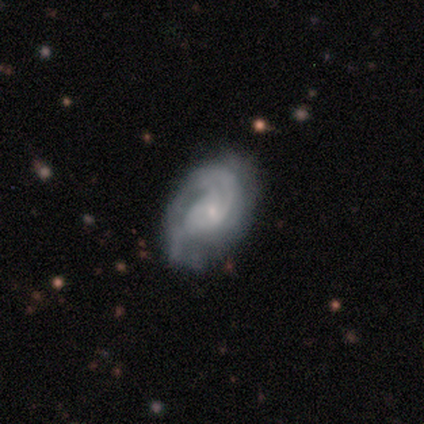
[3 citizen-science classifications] Smooth or featured?
  - featured or disk: 100% *
  - smooth: 0%
  - star or artifact: 0%
Edge-on disk?
  - no: 100% *
  - yes: 0%
Bar?
  - no: 67% *
  - strong: 33%
  - weak: 0%
Spiral arms?
  - yes: 100% *
  - no: 0%
Spiral winding?
  - tight: 100% *
  - medium: 0%
  - loose: 0%
Spiral arm count?
  - 3: 67% *
  - 2: 33%
  - 1: 0%
  - 4: 0%
  - more than 4: 0%
  - can't tell: 0%
Bulge size?
  - small: 67% *
  - moderate: 33%
  - dominant: 0%
  - large: 0%
  - none: 0%
Merging?
  - none: 67% *
  - minor disturbance: 33%
  - major disturbance: 0%
  - merger: 0%